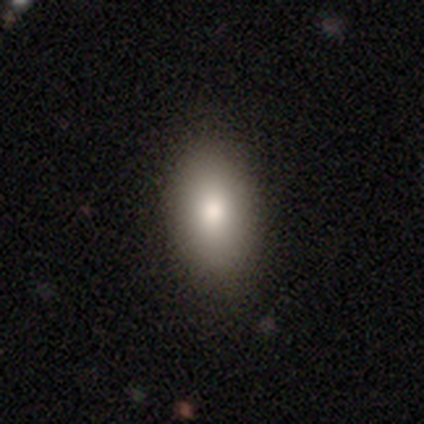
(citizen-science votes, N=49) This is clearly a smooth galaxy (92%). How rounded: clearly in between (84%). Merging: clearly none (87%).